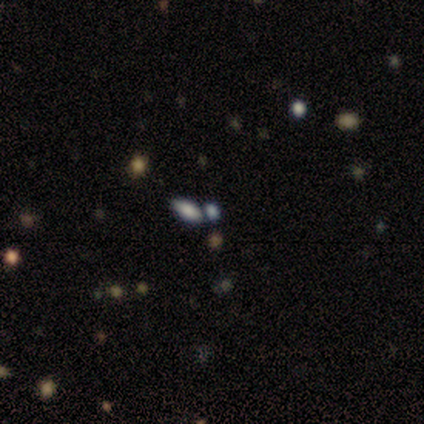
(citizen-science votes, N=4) Overall: smooth (50%, tied with star or artifact). How rounded: in between (50%, tied with cigar-shaped). Merging: none (100%).